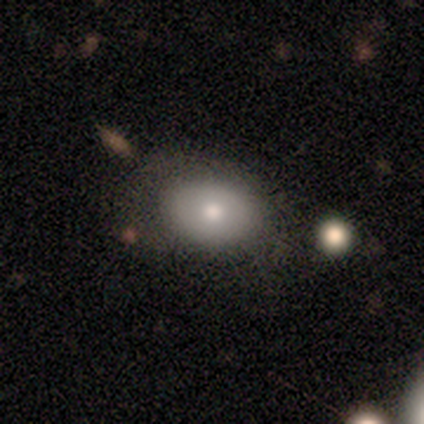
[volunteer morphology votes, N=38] Smooth or featured: smooth — 76% (featured or disk — 18%)
How rounded: in between — 76% (round — 24%)
Merging: none — 64% (minor disturbance — 28%)